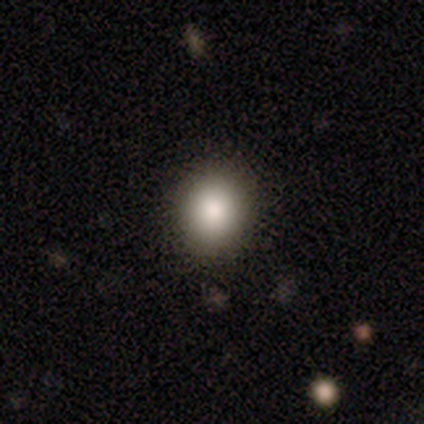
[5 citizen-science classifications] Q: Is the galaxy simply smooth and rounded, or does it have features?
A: smooth — 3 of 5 (60%).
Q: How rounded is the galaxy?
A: in between — 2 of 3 (67%).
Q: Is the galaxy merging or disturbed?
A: none — 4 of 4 (100%).